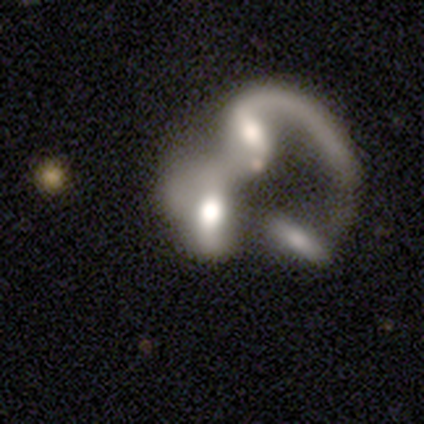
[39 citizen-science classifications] This is likely a featured or disk galaxy (64%). It is clearly not viewed edge-on (92%). Bar: possibly no (48%). Spiral arm pattern: likely no (65%). Central bulge: marginally moderate (39%). Merging: likely merger (62%).